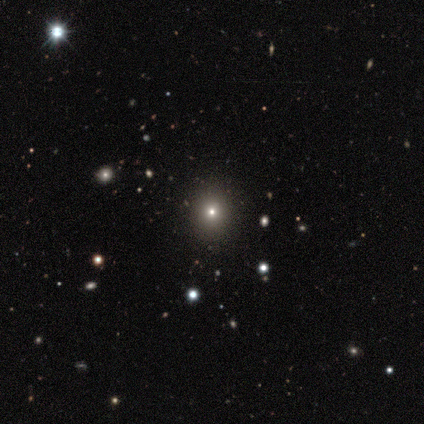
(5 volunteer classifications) Q: Smooth or featured?
A: star or artifact (60%); runner-up: smooth (20%)